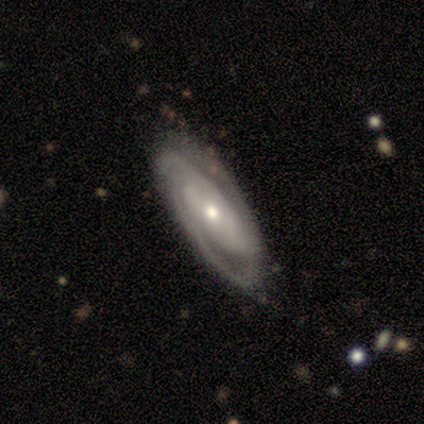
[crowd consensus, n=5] Smooth or featured? featured or disk (100%)
Edge-on disk? no (100%)
Bar? no (80%)
Spiral arms? yes (80%)
Spiral winding? tight (75%)
Spiral arm count? can't tell (50%)
Bulge size? small (80%)
Merging? none (40%, tied with minor disturbance)